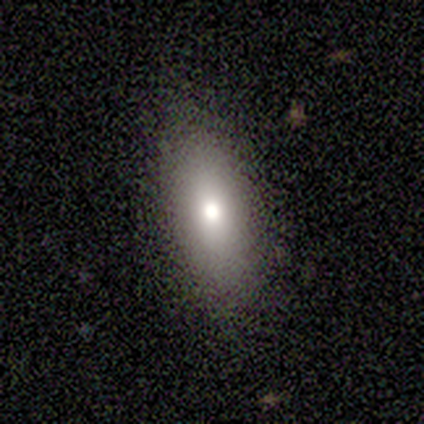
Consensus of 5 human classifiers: A smooth galaxy with no disk features (60%) that is in between round and cigar-shaped (67%). Merging: none (75%).